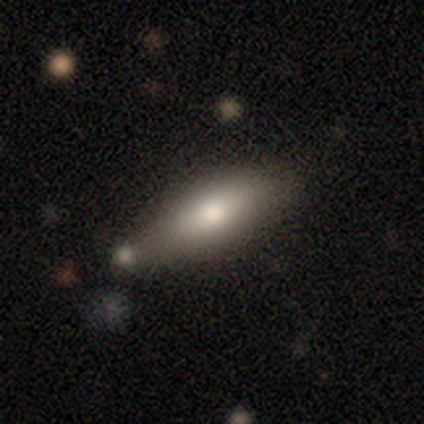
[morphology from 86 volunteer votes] Smooth or featured? 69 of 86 (80%) said smooth. How rounded? 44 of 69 (64%) said in between. Merging? 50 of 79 (63%) said none.